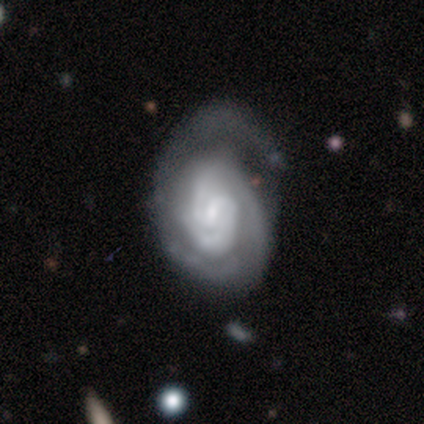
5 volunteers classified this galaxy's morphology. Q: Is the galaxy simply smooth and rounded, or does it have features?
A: featured or disk — 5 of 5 (100%).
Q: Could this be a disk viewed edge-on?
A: no — 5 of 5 (100%).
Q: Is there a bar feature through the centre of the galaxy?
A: no — 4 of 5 (80%).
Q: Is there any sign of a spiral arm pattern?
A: yes — 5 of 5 (100%).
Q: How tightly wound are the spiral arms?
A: medium — 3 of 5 (60%).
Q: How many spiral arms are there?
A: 2 — 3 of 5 (60%).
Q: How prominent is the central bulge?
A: small — 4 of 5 (80%).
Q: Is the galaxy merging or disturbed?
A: minor disturbance — 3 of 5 (60%).